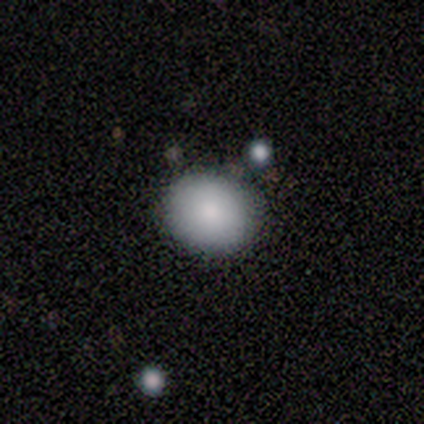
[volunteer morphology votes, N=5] Smooth or featured? 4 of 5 (80%) said smooth. How rounded? 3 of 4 (75%) said round. Merging? 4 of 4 (100%) said none.